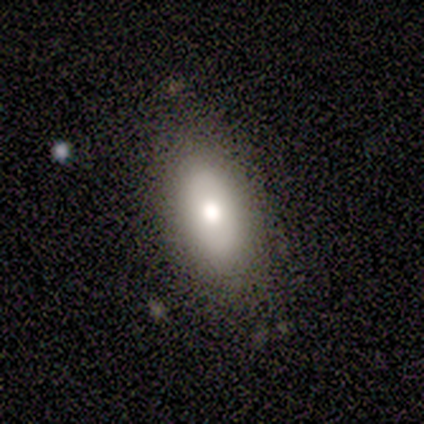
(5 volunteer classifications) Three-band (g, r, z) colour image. It shows a smooth galaxy with no disk features (40%, tied with featured or disk) that is in between round and cigar-shaped (100%). Merging: none (75%).